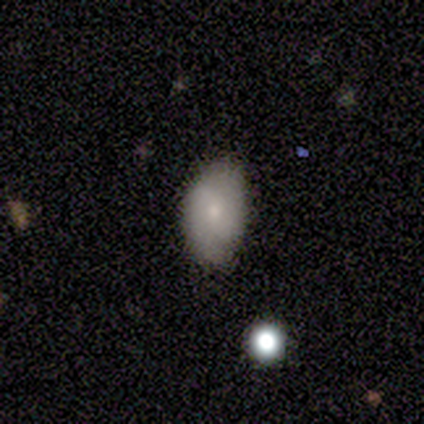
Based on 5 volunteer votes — Smooth or featured: smooth — 80% (featured or disk — 20%)
How rounded: in between — 75% (round — 25%)
Merging: none — 100%